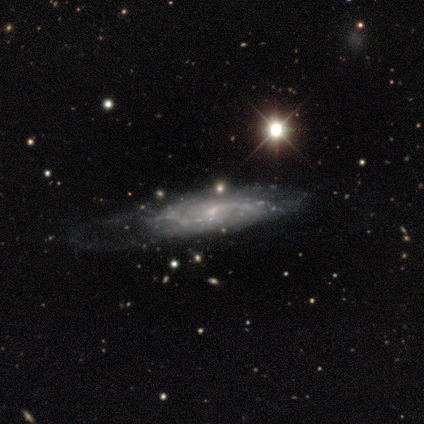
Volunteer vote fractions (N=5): This is clearly a featured or disk galaxy (100%). It is clearly not viewed edge-on (100%). Bar: clearly weak (100%). Spiral arm pattern: clearly yes (100%). Spiral arm count: likely can't tell (60%). Spiral winding: likely loose (60%). Central bulge: clearly small (100%). Merging: marginally none (40%, tied with minor disturbance).